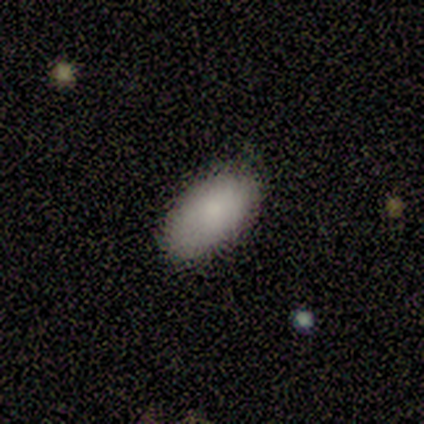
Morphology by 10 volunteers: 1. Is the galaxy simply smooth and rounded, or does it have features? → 90% smooth, 10% featured or disk, 0% star or artifact.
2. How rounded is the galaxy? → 78% in between, 11% round, 11% cigar-shaped.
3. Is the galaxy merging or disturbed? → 100% none, 0% minor disturbance, 0% major disturbance, 0% merger.